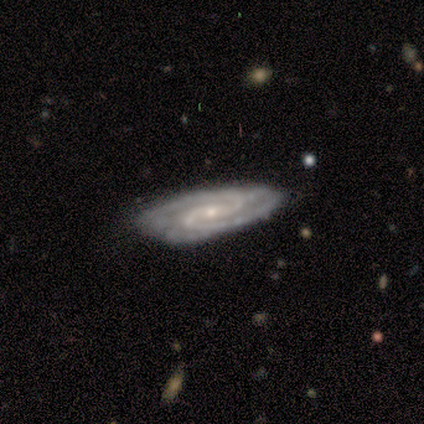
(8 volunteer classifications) This appears to be a featured or disk galaxy (100%) with a weak bar (67%), 2 (100%) tight (50%, tied with medium) spiral arms (100%) and a small central bulge (100%). Merging: none (75%).